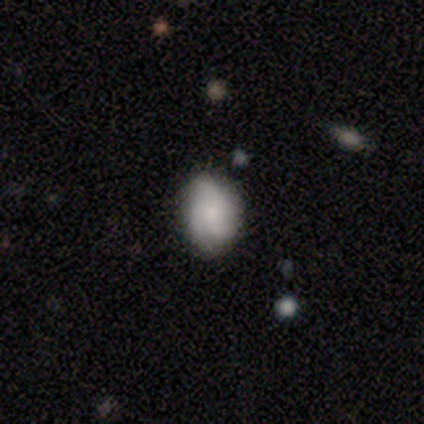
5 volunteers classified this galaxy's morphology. smooth_or_featured: featured or disk (p=0.60) [alt: smooth p=0.40]
disk_edge_on: no (p=1.00)
bar: weak (p=1.00)
has_spiral_arms: yes (p=1.00)
spiral_winding: tight (p=0.67) [alt: loose p=0.33]
spiral_arm_count: 3 (p=1.00)
bulge_size: moderate (p=1.00)
merging: none (p=0.60) [alt: minor disturbance p=0.20]